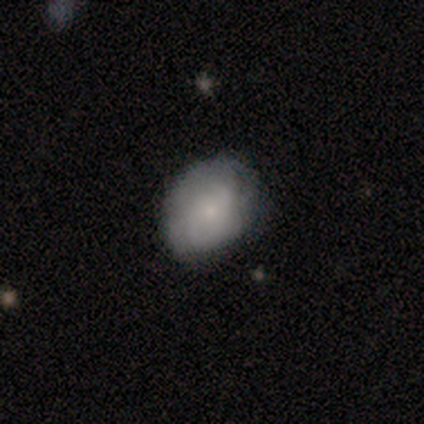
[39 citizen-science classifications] A smooth galaxy with no disk features (67%) that is round (62%). Merging: none (72%).